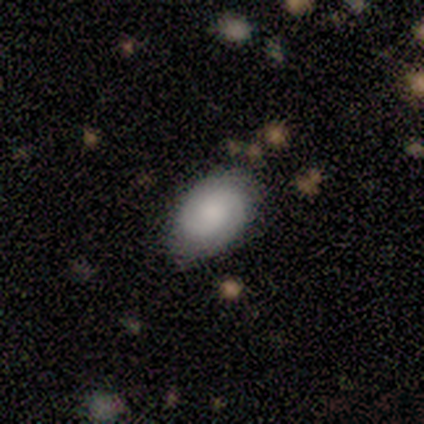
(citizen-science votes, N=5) Smooth or featured?
  - smooth: 60% *
  - featured or disk: 20%
  - star or artifact: 20%
How rounded?
  - in between: 100% *
  - round: 0%
  - cigar-shaped: 0%
Merging?
  - minor disturbance: 50% *
  - none: 25%
  - major disturbance: 25%
  - merger: 0%